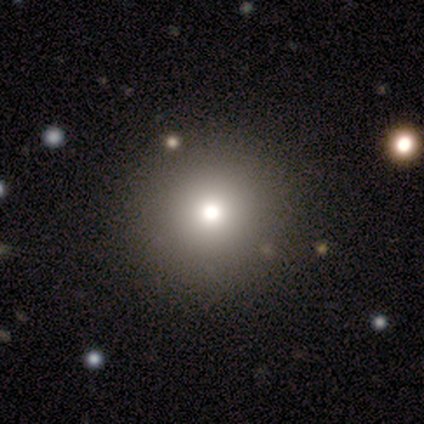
Q: Smooth or featured?
A: smooth (60%); runner-up: featured or disk (40%)
Q: How rounded?
A: round (100%)
Q: Merging?
A: none (100%)